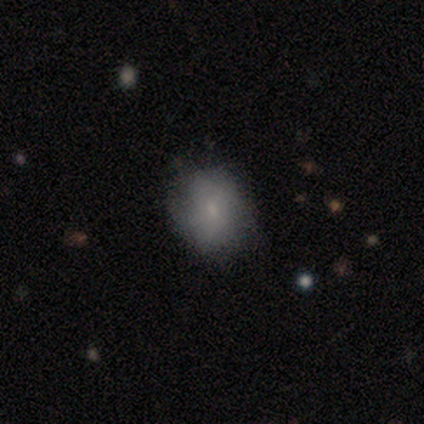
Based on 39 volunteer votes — Q: Smooth or featured?
A: smooth (69%); runner-up: featured or disk (21%)
Q: How rounded?
A: round (67%); runner-up: in between (33%)
Q: Merging?
A: none (66%); runner-up: minor disturbance (23%)